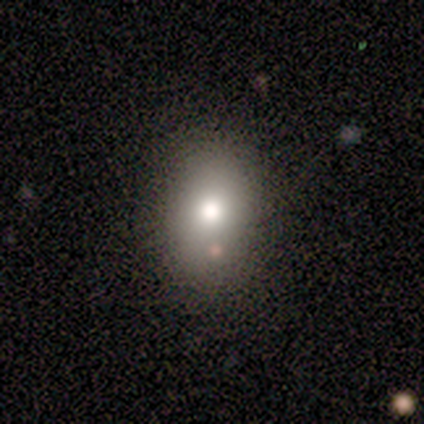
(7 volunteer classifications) Volunteers were most divided on "how rounded" (2-way tie): round: 50%, in between: 50%, cigar-shaped: 0%. More confident: smooth or featured — smooth (86%); merging — none (71%).